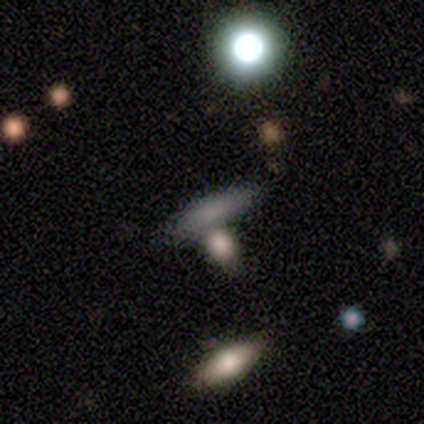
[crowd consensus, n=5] Smooth or featured? smooth (60%)
How rounded? cigar-shaped (67%)
Merging? none (50%)